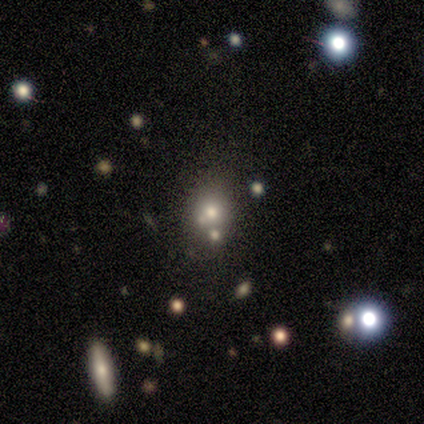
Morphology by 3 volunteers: smooth 33% (tied), featured or disk 33% (tied), star or artifact 33% (tied). Down the decision tree: how rounded — round (100%); merging — none (50%, tied with major disturbance).